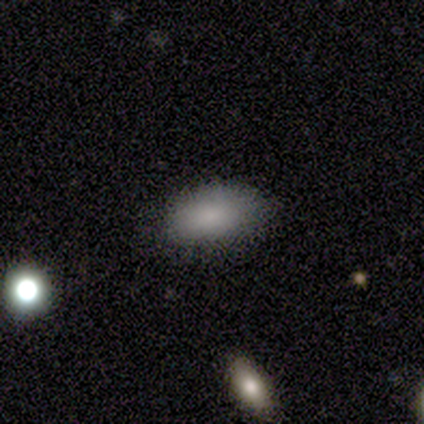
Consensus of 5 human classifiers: Volunteers were most divided on "smooth or featured": smooth: 60%, featured or disk: 20%, star or artifact: 20%. More confident: how rounded — in between (100%); merging — none (100%).